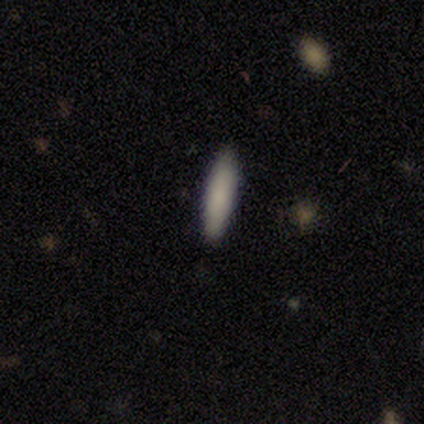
Overall: smooth (80%). How rounded: in between (50%, tied with cigar-shaped). Merging: none (100%).